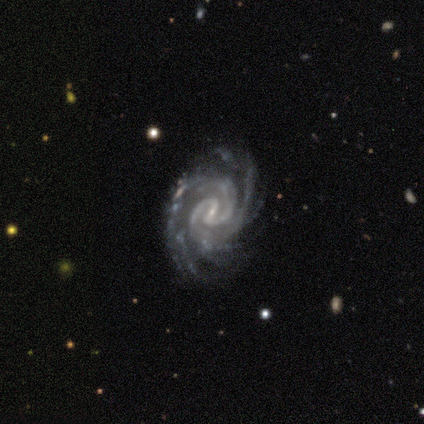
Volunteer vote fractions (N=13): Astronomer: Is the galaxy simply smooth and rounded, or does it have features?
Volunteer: featured or disk — 92%.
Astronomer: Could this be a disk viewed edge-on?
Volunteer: no — 100%.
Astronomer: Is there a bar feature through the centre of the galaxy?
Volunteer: strong — 42%, tied with weak at 42%.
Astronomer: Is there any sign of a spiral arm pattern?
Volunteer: yes — 100%.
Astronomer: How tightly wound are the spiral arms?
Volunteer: tight — 83%.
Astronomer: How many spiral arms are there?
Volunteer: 2 — 42% (runner-up: 3, 33%).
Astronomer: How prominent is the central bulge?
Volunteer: small — 83%.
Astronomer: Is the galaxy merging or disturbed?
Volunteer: none — 75%.